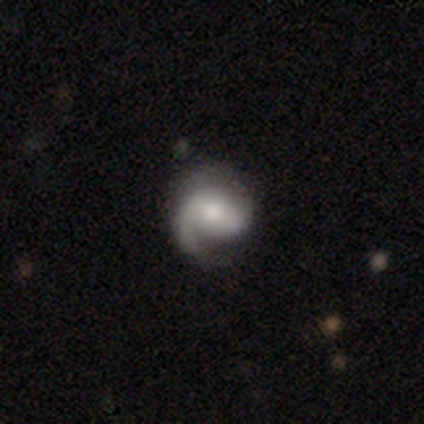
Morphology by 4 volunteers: smooth_or_featured: featured or disk (p=1.00)
disk_edge_on: no (p=1.00)
bar: weak (p=0.50) [tied with: no p=0.50]
has_spiral_arms: yes (p=1.00)
spiral_winding: medium (p=0.50) [tied with: loose p=0.50]
spiral_arm_count: 1 (p=0.75) [alt: 2 p=0.25]
bulge_size: moderate (p=0.75) [alt: small p=0.25]
merging: none (p=0.75) [alt: major disturbance p=0.25]